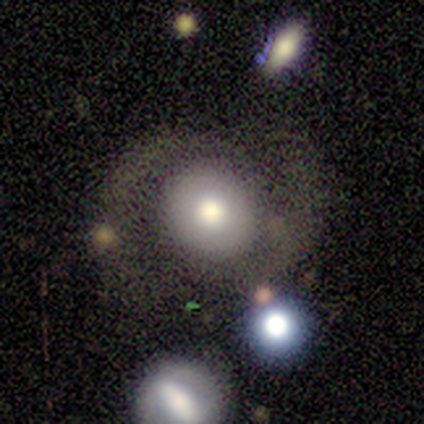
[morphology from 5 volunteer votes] smooth-or-featured: smooth: 60% | featured or disk: 40% | star or artifact: 0%
  how-rounded: round: 67% | in between: 33% | cigar-shaped: 0%
  merging: none: 40% (tied) | major disturbance: 40% (tied) | minor disturbance: 20% | merger: 0%